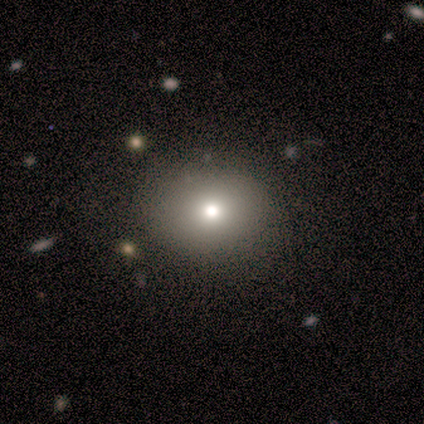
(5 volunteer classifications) smooth_or_featured: smooth (p=1.00)
how_rounded: in between (p=0.60) [alt: round p=0.40]
merging: none (p=1.00)